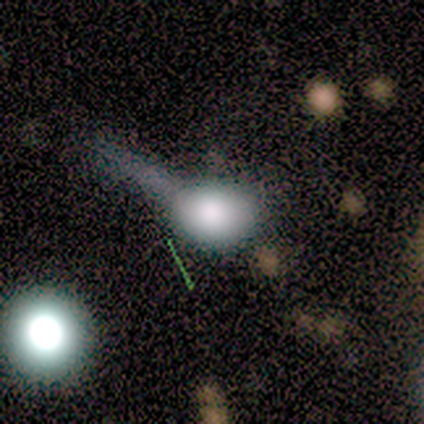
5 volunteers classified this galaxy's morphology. Smooth or featured: featured or disk — 60% (smooth — 20%)
Edge-on disk: yes — 67% (no — 33%)
Edge-on bulge: rounded — 100%
Merging: none — 50% (minor disturbance — 25%)